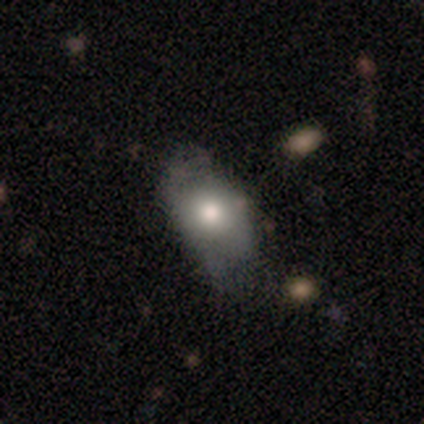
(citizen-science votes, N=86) Volunteers were most divided on "merging": none: 43%, minor disturbance: 40%, major disturbance: 16%, merger: 1%. More confident: how rounded — in between (81%); smooth or featured — smooth (66%).